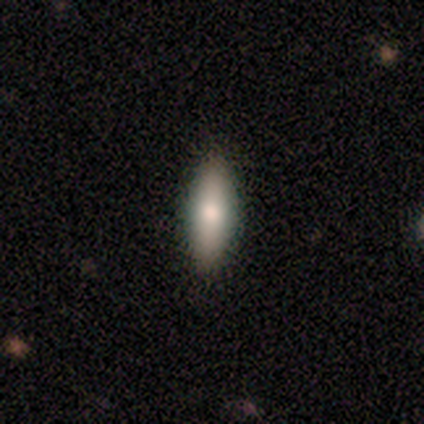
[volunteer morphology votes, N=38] Smooth or featured?
  - smooth: 68% *
  - featured or disk: 18%
  - star or artifact: 13%
How rounded?
  - in between: 54% *
  - cigar-shaped: 38%
  - round: 8%
Merging?
  - none: 82% *
  - minor disturbance: 15%
  - major disturbance: 3%
  - merger: 0%